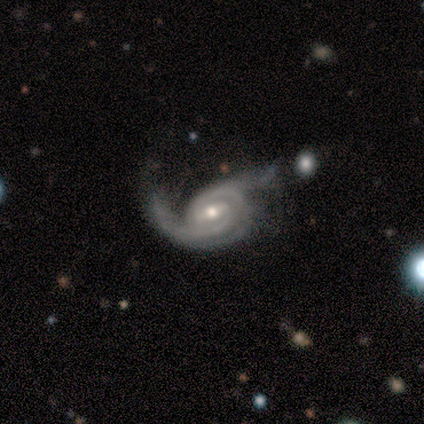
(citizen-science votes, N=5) Smooth or featured: featured or disk — 100%
Edge-on disk: no — 100%
Bar: strong — 40% (tied with weak — 40%)
Spiral arms: yes — 100%
Spiral winding: tight — 40% (tied with medium — 40%)
Spiral arm count: 2 — 60% (1 — 20%)
Bulge size: small — 60% (moderate — 40%)
Merging: none — 40% (tied with major disturbance — 40%)